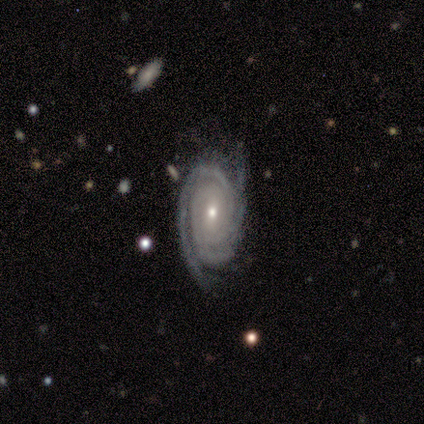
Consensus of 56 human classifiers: A featured or disk galaxy (91%) with no bar (52%), 2 (45%) tight (78%) spiral arms (98%) and a small central bulge (72%). Merging: none (69%).